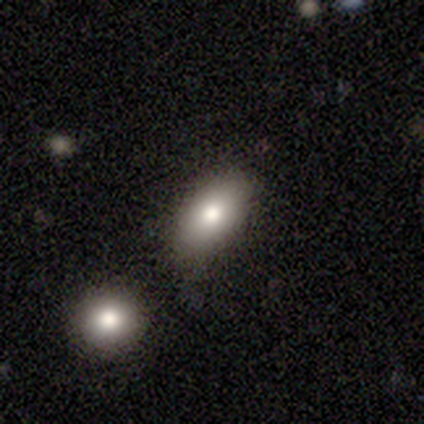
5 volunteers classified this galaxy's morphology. A smooth galaxy with no disk features (80%) that is in between round and cigar-shaped (100%). Merging: none (80%).